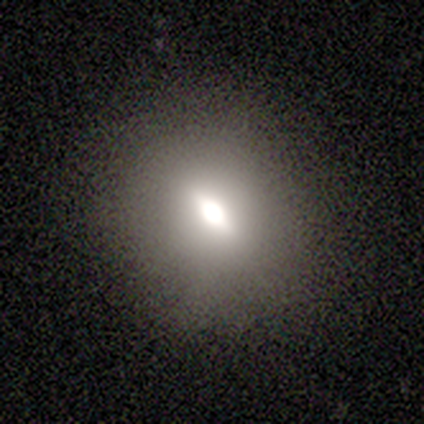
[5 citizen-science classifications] Smooth or featured: smooth — 80% (featured or disk — 20%)
How rounded: in between — 75% (round — 25%)
Merging: none — 100%